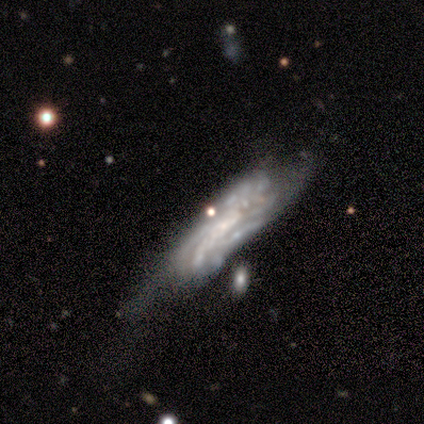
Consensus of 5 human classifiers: Smooth or featured: featured or disk — 80% (smooth — 20%)
Edge-on disk: no — 75% (yes — 25%)
Bar: strong — 33% (tied with weak — 33%; no — 33%)
Spiral arms: yes — 67% (no — 33%)
Spiral winding: tight — 100%
Spiral arm count: can't tell — 100%
Bulge size: none — 67% (small — 33%)
Merging: minor disturbance — 80% (major disturbance — 20%)